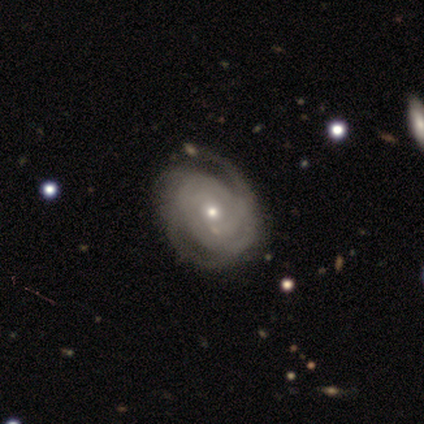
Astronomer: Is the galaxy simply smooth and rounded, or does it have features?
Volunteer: featured or disk — 80%.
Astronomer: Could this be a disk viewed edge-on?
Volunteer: no — 100%.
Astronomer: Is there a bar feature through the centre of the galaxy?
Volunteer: no — 75%.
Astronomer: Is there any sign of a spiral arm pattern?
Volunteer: yes — 100%.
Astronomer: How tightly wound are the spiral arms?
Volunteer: tight — 100%.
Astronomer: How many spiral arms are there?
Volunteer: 4 — 50%.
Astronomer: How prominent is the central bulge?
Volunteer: small — 50%.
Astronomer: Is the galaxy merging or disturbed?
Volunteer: none — 100%.